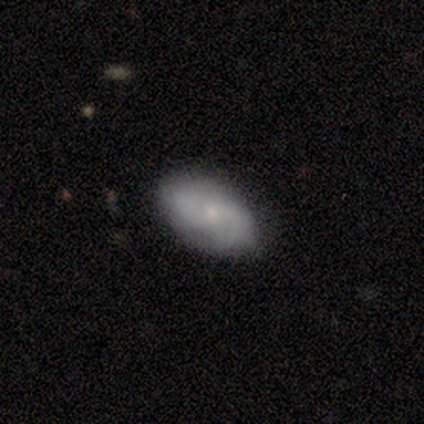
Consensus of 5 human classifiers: Morphology: type=smooth (60%); roundness=in between (100%); merging=none (100%).